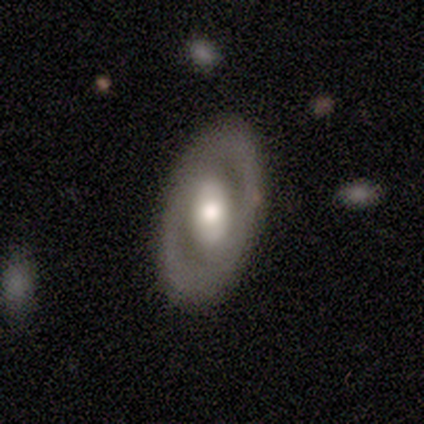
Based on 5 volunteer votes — This appears to be a smooth galaxy with no disk features (60%) that is in between round and cigar-shaped (67%). Merging: none (100%).